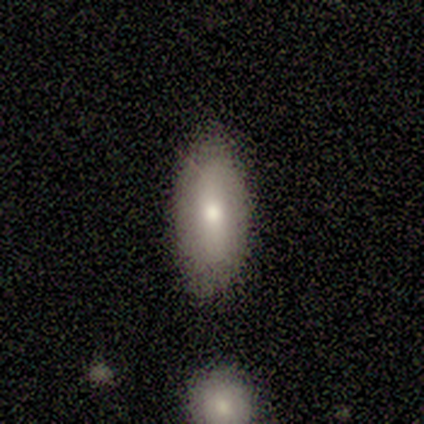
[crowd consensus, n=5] Smooth or featured? smooth (80%)
How rounded? in between (100%)
Merging? none (100%)